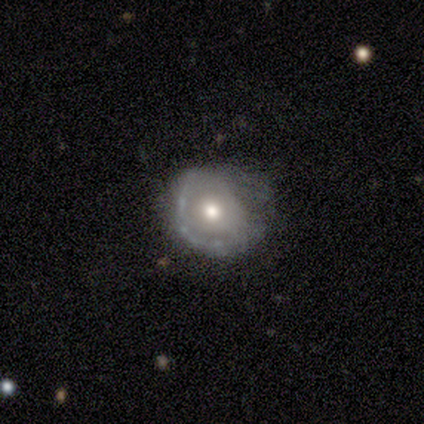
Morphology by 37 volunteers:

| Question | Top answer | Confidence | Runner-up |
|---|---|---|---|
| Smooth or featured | featured or disk | 54% | smooth (32%) |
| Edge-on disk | no | 90% | yes (10%) |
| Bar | no | 100% | — |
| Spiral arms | no | 61% | yes (39%) |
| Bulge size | moderate | 78% | small (22%) |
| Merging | none | 47% | minor disturbance (28%) |